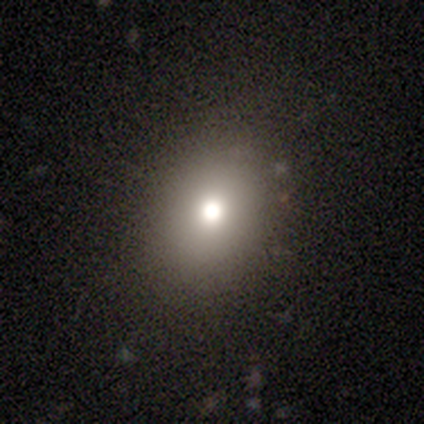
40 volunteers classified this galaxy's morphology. This appears to be a smooth galaxy with no disk features (70%) that is round (64%). Merging: none (84%).